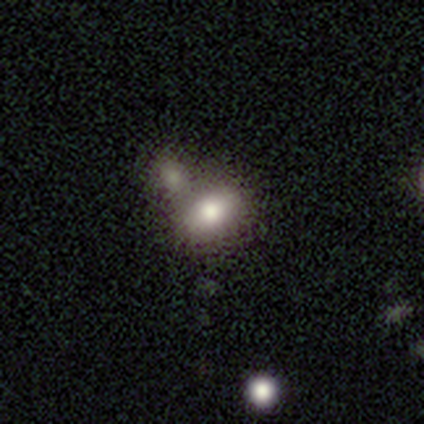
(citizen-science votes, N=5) smooth 100%, featured or disk 0%, star or artifact 0%. Down the decision tree: how rounded — in between (80%); merging — merger (80%).